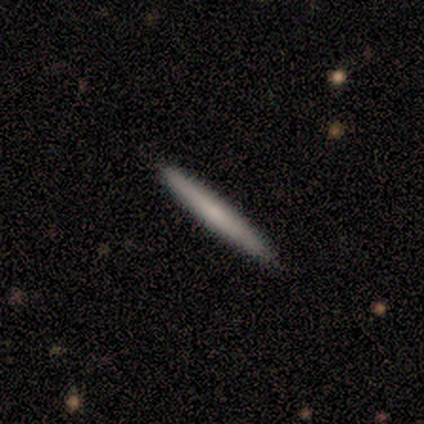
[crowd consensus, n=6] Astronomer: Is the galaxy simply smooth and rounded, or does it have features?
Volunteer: smooth — 83%.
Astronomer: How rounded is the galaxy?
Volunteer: cigar-shaped — 100%.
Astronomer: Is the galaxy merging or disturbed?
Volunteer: none — 100%.